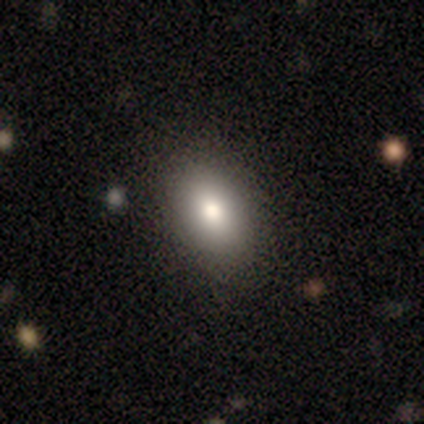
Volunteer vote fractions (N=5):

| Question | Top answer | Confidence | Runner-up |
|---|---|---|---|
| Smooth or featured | smooth | 80% | featured or disk (20%) |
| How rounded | in between | 75% | round (25%) |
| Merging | none | 100% | — |